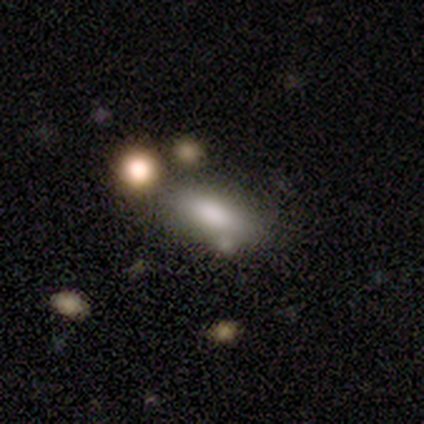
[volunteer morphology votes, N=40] type=smooth (72%); roundness=in between (83%); merging=none (41%).